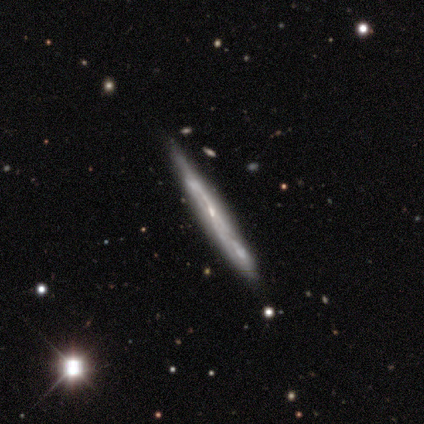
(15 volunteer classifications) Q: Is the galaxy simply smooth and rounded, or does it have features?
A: featured or disk — 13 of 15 (87%).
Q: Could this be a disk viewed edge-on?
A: yes — 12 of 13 (92%).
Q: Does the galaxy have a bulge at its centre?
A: none — 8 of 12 (67%).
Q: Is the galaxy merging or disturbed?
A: none — 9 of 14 (64%).